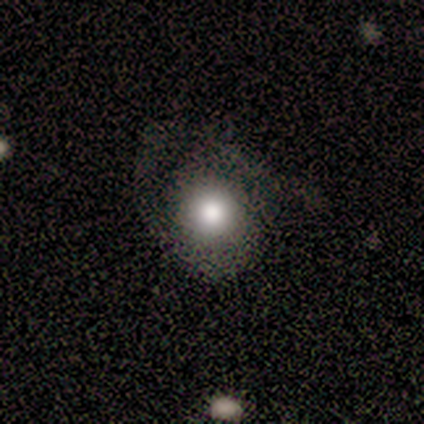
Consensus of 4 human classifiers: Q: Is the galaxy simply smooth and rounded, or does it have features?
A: smooth — 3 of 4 (75%).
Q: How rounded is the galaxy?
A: round — 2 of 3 (67%).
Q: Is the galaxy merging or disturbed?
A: none — 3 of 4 (75%).